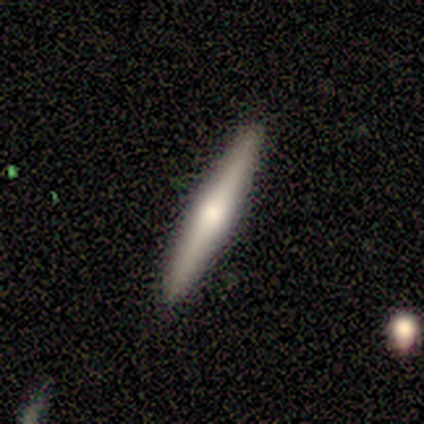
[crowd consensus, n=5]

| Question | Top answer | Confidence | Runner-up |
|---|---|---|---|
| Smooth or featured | featured or disk | 60% | smooth (20%) |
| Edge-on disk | yes | 100% | — |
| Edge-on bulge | rounded | 100% | — |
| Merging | none | 75% | minor disturbance (25%) |